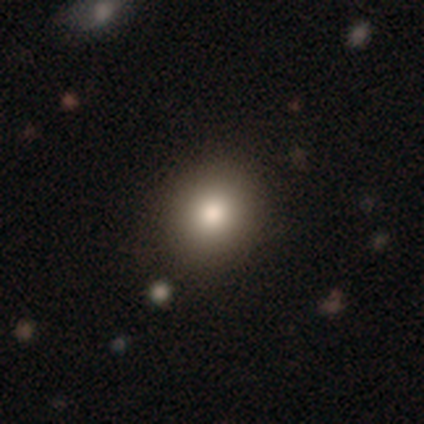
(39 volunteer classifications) Overall: smooth (79%). How rounded: round (68%; in between 29%). Merging: none (79%).